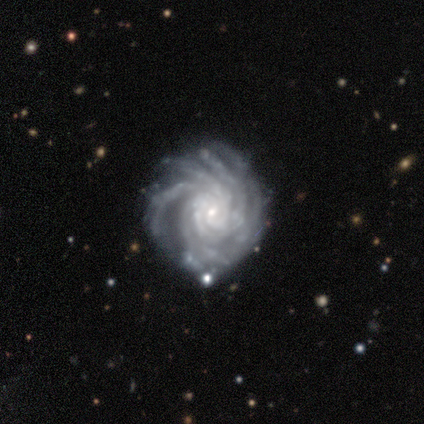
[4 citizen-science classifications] smooth_or_featured: featured or disk (p=1.00)
disk_edge_on: no (p=1.00)
bar: weak (p=0.75) [alt: no p=0.25]
has_spiral_arms: yes (p=1.00)
spiral_winding: tight (p=0.75) [alt: medium p=0.25]
spiral_arm_count: more than 4 (p=0.75) [alt: 3 p=0.25]
bulge_size: moderate (p=0.50) [tied with: small p=0.50]
merging: none (p=0.50) [alt: minor disturbance p=0.25]